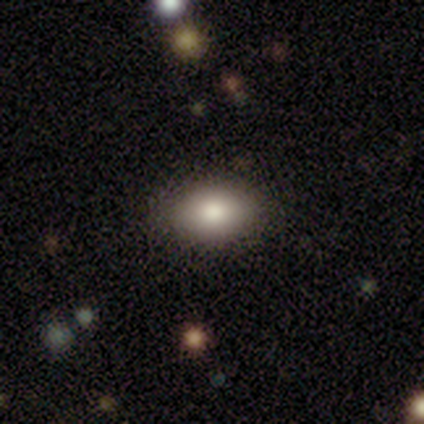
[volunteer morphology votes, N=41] A smooth galaxy with no disk features (71%) that is in between round and cigar-shaped (72%).

Vote fractions:
- Smooth or featured? smooth: 71% / featured or disk: 22% / star or artifact: 7%
- How rounded? in between: 72% / round: 28% / cigar-shaped: 0%
- Merging? none: 95% / minor disturbance: 5% / major disturbance: 0% / merger: 0%